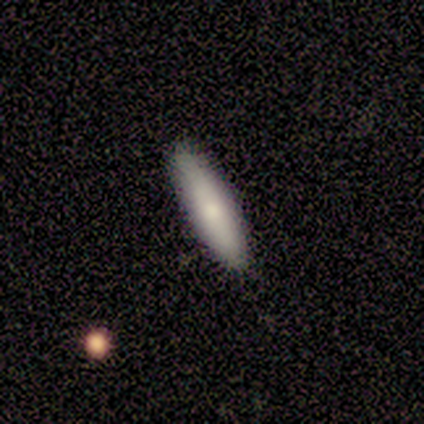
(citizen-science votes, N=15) smooth 73%, featured or disk 20%, star or artifact 7%. Down the decision tree: how rounded — cigar-shaped (73%); merging — none (100%).